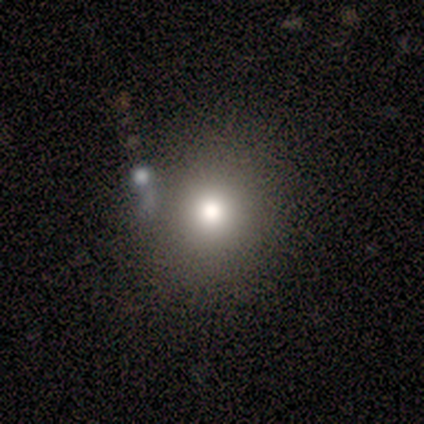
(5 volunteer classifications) Morphology: type=smooth (40%, tied with star or artifact); roundness=round (100%); merging=none (100%).